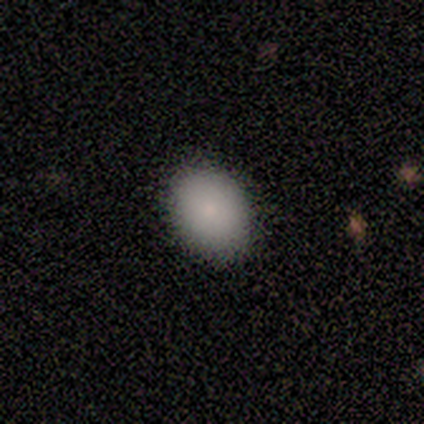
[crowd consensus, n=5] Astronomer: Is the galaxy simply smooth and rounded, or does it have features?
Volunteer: smooth — 60%.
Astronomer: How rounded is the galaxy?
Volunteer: in between — 100%.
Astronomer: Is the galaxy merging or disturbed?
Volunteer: none — 100%.